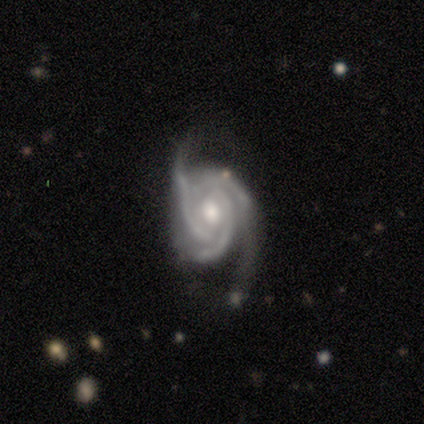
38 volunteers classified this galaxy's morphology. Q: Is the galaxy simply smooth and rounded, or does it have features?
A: featured or disk — 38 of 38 (100%).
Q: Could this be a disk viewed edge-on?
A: no — 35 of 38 (92%).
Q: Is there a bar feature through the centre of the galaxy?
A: no — 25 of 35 (71%).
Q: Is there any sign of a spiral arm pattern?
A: yes — 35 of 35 (100%).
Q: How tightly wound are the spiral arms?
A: tight — 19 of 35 (54%).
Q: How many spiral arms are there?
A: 3 — 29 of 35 (83%).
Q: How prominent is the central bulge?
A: moderate — 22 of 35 (63%).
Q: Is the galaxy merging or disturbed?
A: none — 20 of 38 (53%).